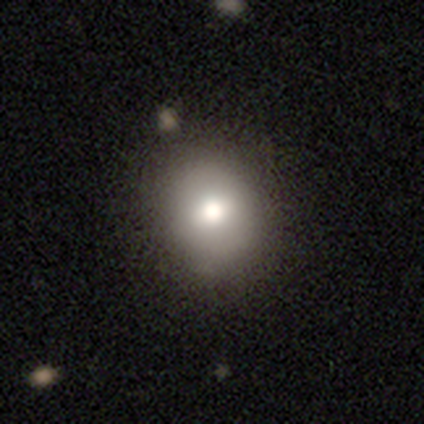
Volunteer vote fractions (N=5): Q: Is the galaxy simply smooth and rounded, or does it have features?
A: smooth — 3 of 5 (60%).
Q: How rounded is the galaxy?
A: round — 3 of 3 (100%).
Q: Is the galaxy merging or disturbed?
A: none — 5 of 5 (100%).